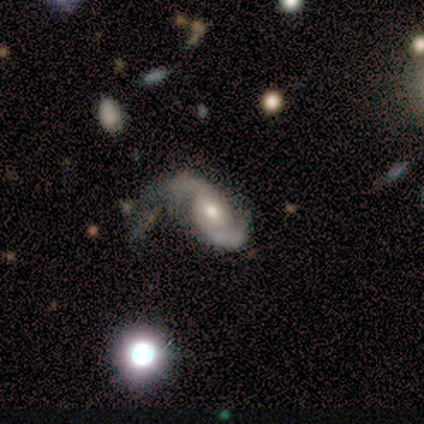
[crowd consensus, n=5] A featured or disk galaxy (100%) with no bar (100%), 2 (100%) medium (40%, tied with loose) spiral arms (100%) and a moderate central bulge (100%).

Vote fractions:
- Smooth or featured? featured or disk: 100% / smooth: 0% / star or artifact: 0%
- Edge-on disk? no: 100% / yes: 0%
- Bar? no: 100% / strong: 0% / weak: 0%
- Spiral arms? yes: 100% / no: 0%
- Spiral winding? medium: 40% (tied) / loose: 40% (tied) / tight: 20%
- Spiral arm count? 2: 100% / 1: 0% / 3: 0% / 4: 0% / more than 4: 0% / can't tell: 0%
- Bulge size? moderate: 100% / dominant: 0% / large: 0% / small: 0% / none: 0%
- Merging? none: 60% / minor disturbance: 40% / major disturbance: 0% / merger: 0%